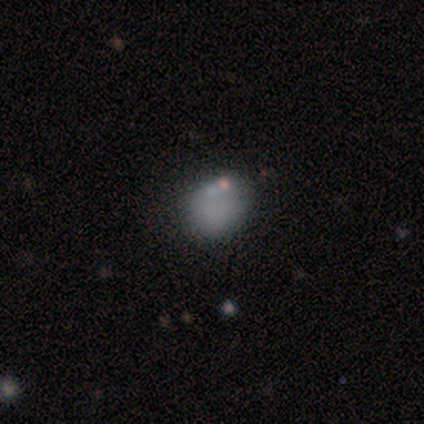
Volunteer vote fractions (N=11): Q: Smooth or featured?
A: smooth (91%); runner-up: star or artifact (9%)
Q: How rounded?
A: round (100%)
Q: Merging?
A: none (100%)